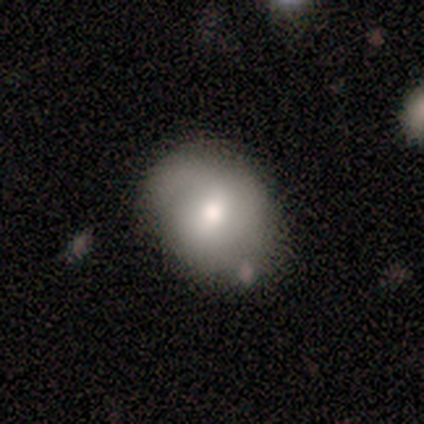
This is likely a featured or disk galaxy (60%). It is clearly not viewed edge-on (100%). Bar: likely weak (67%). Spiral arm pattern: clearly yes (100%). Spiral arm count: likely 2 (67%). Spiral winding: likely medium (67%). Central bulge: clearly moderate (100%). Merging: likely none (60%).